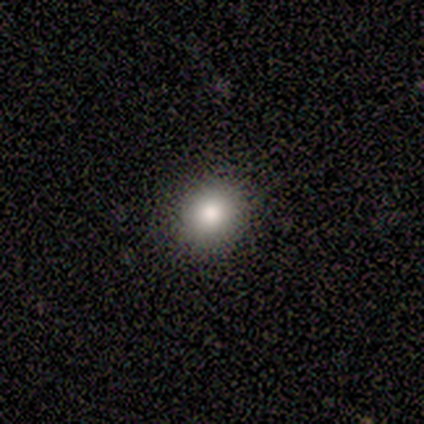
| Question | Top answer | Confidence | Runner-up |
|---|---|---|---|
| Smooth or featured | smooth | 89% | star or artifact (8%) |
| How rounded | round | 88% | in between (12%) |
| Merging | none | 80% | minor disturbance (14%) |